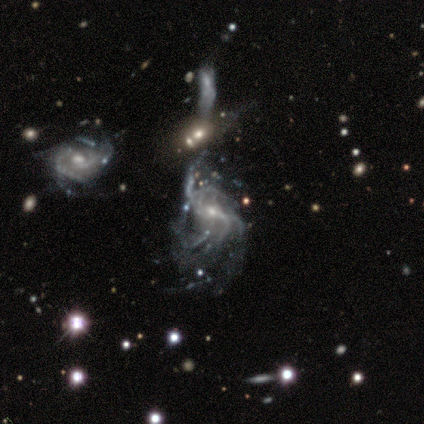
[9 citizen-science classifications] A featured or disk galaxy (89%) with a weak bar (50%), 2 (29%, tied with more than 4 and can't tell) loose (57%) spiral arms (88%) and a small central bulge (50%). Merging: major disturbance (38%).